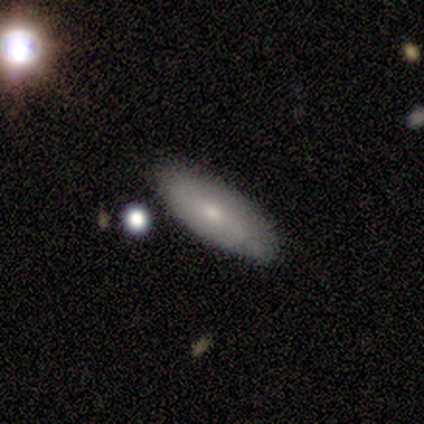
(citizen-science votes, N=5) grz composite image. It shows a featured or disk galaxy (60%) with no bar (67%), 2 (100%) tight (50%, tied with loose) spiral arms (67%) and a small central bulge (67%). Merging: none (80%).